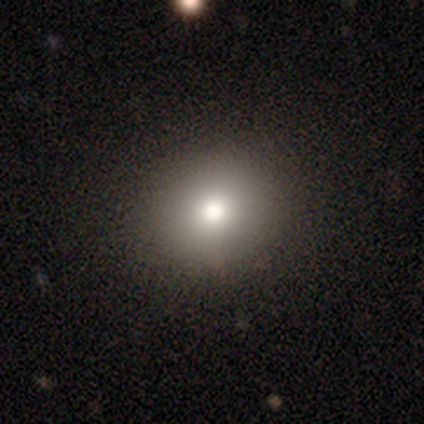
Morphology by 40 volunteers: smooth_or_featured: smooth (p=0.75) [alt: star or artifact p=0.17]
how_rounded: round (p=0.83) [alt: in between p=0.17]
merging: none (p=0.94) [alt: major disturbance p=0.06]